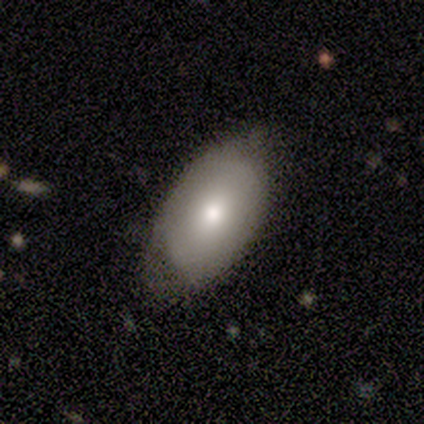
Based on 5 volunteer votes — This is likely a featured or disk galaxy (60%). It is likely not viewed edge-on (67%). Bar: clearly no (100%). Spiral arm pattern: clearly no (100%). Central bulge: possibly moderate (50%, tied with small). Merging: clearly none (80%).